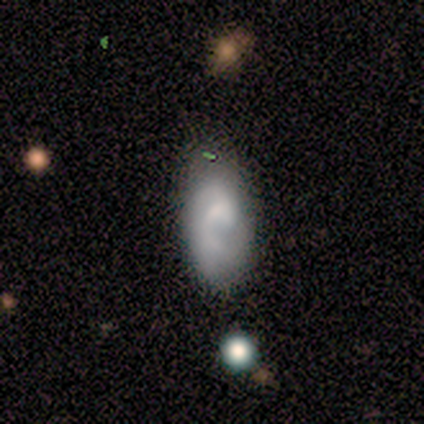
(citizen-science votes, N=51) This is likely a featured or disk galaxy (71%). It is clearly not viewed edge-on (100%). Bar: likely no (64%). Spiral arm pattern: clearly yes (81%). Spiral arm count: marginally 1 (38%, tied with 2). Spiral winding: marginally tight (41%). Central bulge: marginally none (44%). Merging: marginally minor disturbance (39%).